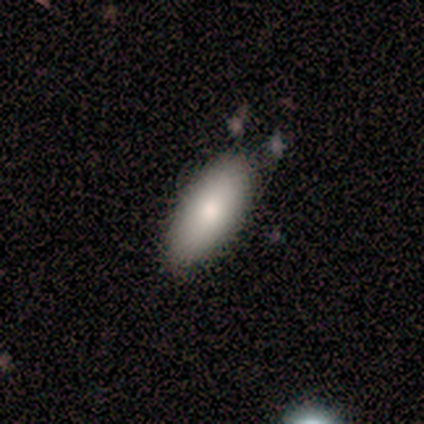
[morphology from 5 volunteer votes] smooth_or_featured: smooth (p=0.80) [alt: featured or disk p=0.20]
how_rounded: in between (p=0.75) [alt: cigar-shaped p=0.25]
merging: none (p=0.80) [alt: minor disturbance p=0.20]